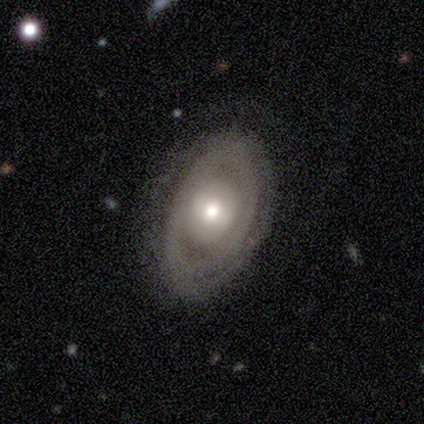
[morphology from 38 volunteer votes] Smooth or featured? 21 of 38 (55%) said featured or disk. Edge-on disk? 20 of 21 (95%) said no. Bar? 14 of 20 (70%) said no. Spiral arms? 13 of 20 (65%) said no. Bulge size? 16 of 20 (80%) said moderate. Merging? 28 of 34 (82%) said none.